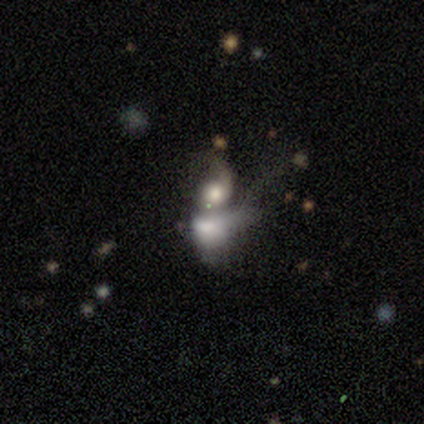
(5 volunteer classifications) Morphology: type=featured or disk (80%); edge-on=no (100%); bar=no (75%); spiral arms=no (75%); bulge=large (25%, tied with moderate, small and none); merging=merger (100%).